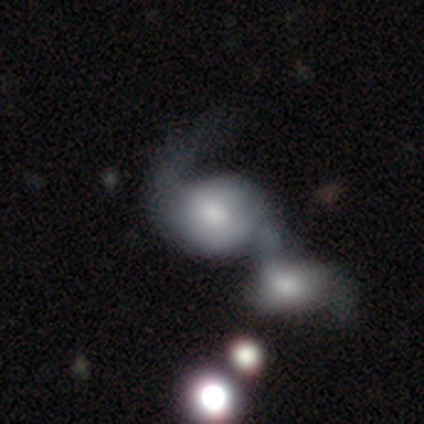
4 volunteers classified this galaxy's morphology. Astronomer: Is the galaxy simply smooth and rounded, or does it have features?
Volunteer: smooth — 50%.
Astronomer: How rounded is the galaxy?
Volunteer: round — 50%, tied with in between at 50%.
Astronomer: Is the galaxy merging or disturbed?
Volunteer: none — 33%, tied with minor disturbance and major disturbance at 33%.